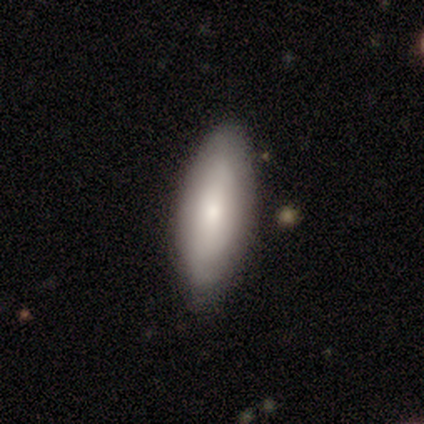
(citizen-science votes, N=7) smooth 57%, featured or disk 43%, star or artifact 0%. Down the decision tree: how rounded — in between (50%, tied with cigar-shaped); merging — none (100%).